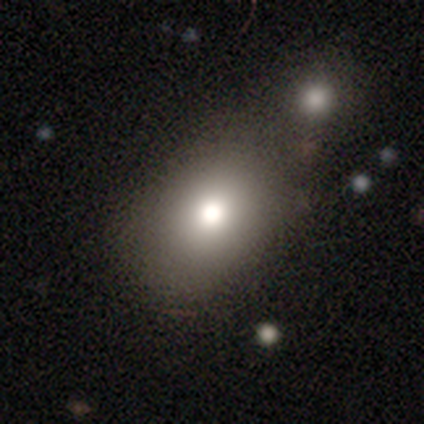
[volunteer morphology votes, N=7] Overall: smooth (86%). How rounded: in between (100%). Merging: merger (57%; none 43%).